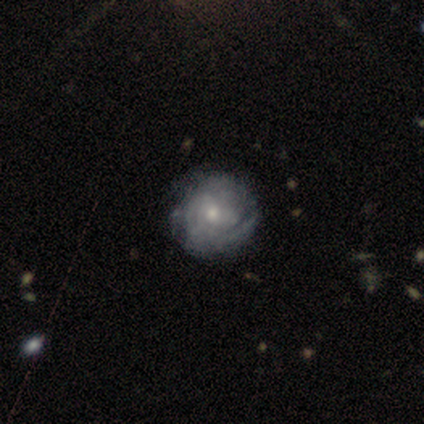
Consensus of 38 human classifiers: Smooth or featured: featured or disk — 89% (smooth — 8%)
Edge-on disk: no — 100%
Bar: no — 76% (weak — 21%)
Spiral arms: yes — 88% (no — 12%)
Spiral winding: tight — 60% (medium — 23%)
Spiral arm count: can't tell — 60% (1 — 20%)
Bulge size: moderate — 59% (small — 38%)
Merging: none — 41% (minor disturbance — 22%)